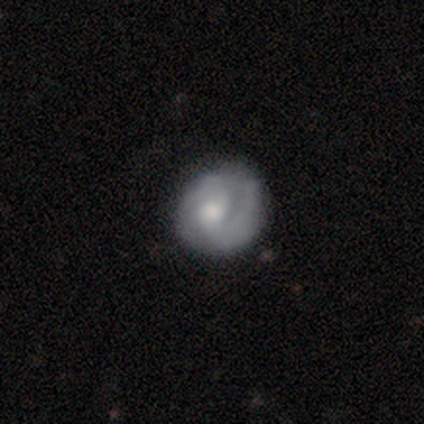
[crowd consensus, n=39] Smooth or featured? 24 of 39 (62%) said featured or disk. Edge-on disk? 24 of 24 (100%) said no. Bar? 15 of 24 (62%) said no. Spiral arms? 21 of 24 (88%) said yes. Spiral winding? 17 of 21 (81%) said tight. Spiral arm count? 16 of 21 (76%) said 2. Bulge size? 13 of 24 (54%) said moderate. Merging? 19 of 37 (51%) said none.